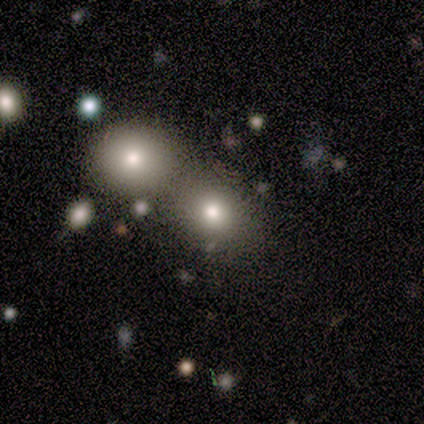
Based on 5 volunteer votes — Smooth or featured? smooth (80%)
How rounded? round (50%, tied with in between)
Merging? none (50%, tied with merger)